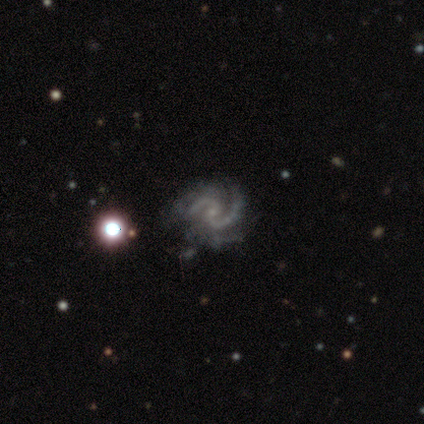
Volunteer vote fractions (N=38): This appears to be a featured or disk galaxy (95%) with no bar (56%), 2 (79%) medium (73%) spiral arms (97%) and a small central bulge (88%). Merging: none (46%).